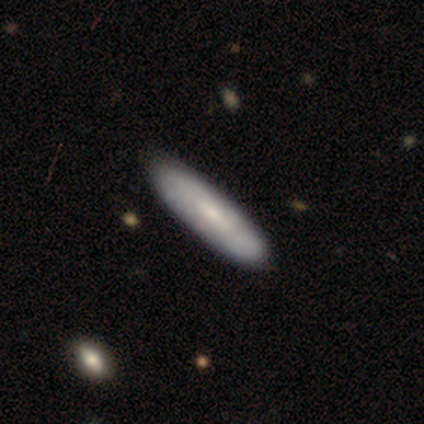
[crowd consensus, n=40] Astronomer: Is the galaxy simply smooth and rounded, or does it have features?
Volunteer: smooth — 57% (runner-up: featured or disk, 32%).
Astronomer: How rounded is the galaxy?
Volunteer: cigar-shaped — 70%.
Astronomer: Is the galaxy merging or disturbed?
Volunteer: none — 42%.